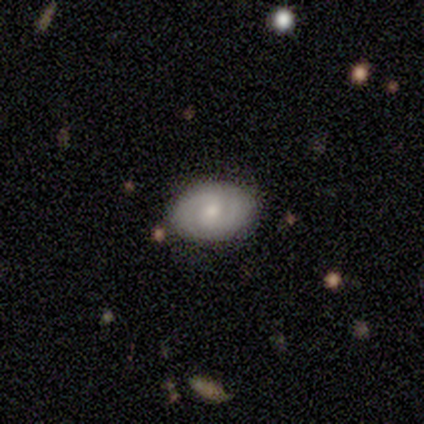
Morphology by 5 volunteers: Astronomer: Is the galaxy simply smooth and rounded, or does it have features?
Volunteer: featured or disk — 80%.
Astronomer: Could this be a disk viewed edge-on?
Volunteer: no — 75%.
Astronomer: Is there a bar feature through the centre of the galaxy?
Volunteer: weak — 100%.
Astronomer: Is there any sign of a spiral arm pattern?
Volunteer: yes — 100%.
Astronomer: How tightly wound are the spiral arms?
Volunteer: medium — 67%.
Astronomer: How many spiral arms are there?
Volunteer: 2 — 100%.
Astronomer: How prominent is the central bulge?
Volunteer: moderate — 67%.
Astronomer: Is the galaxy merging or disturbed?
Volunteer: none — 40%, tied with minor disturbance at 40%.